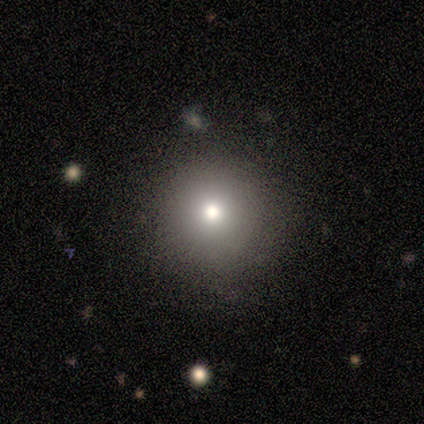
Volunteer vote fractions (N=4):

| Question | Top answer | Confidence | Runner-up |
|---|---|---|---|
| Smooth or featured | smooth | 75% | star or artifact (25%) |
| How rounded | round | 100% | — |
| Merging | none | 100% | — |